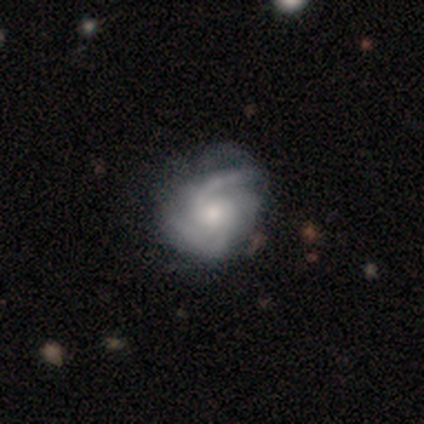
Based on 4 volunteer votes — Smooth or featured?
  - featured or disk: 100% *
  - smooth: 0%
  - star or artifact: 0%
Edge-on disk?
  - no: 100% *
  - yes: 0%
Bar?
  - no: 75% *
  - weak: 25%
  - strong: 0%
Spiral arms?
  - yes: 100% *
  - no: 0%
Spiral winding?
  - medium: 50% * (tied)
  - loose: 50% * (tied)
  - tight: 0%
Spiral arm count?
  - 2: 50% *
  - 4: 25%
  - can't tell: 25%
  - 1: 0%
  - 3: 0%
  - more than 4: 0%
Bulge size?
  - moderate: 75% *
  - small: 25%
  - dominant: 0%
  - large: 0%
  - none: 0%
Merging?
  - none: 100% *
  - minor disturbance: 0%
  - major disturbance: 0%
  - merger: 0%